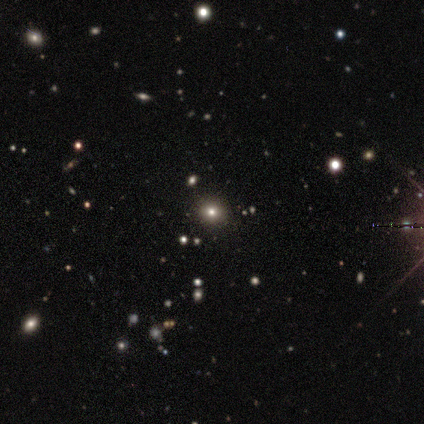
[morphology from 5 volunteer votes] Volunteers were most divided on "smooth or featured": smooth: 60%, star or artifact: 40%, featured or disk: 0%. More confident: merging — none (100%); how rounded — round (67%).